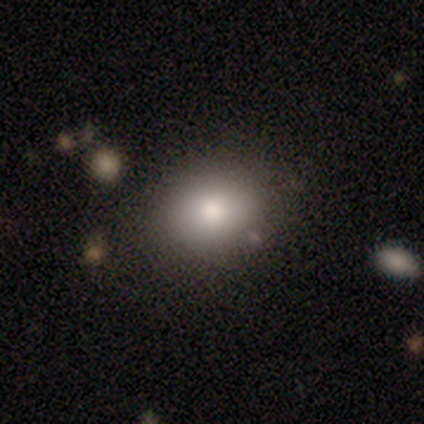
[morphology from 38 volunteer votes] type=smooth (79%); roundness=round (67%); merging=none (85%).